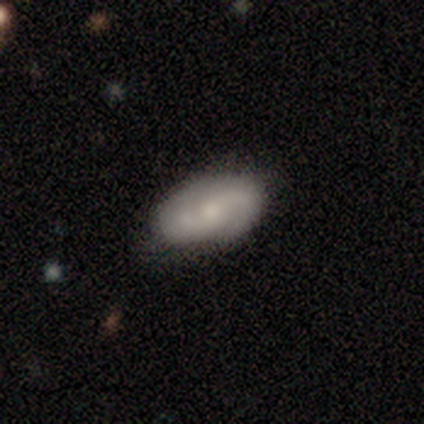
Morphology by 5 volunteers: Volunteers were most divided on "smooth or featured": featured or disk: 60%, smooth: 40%, star or artifact: 0%. More confident: edge-on disk — no (100%); bar — no (100%); spiral arms — yes (100%); spiral winding — medium (67%); spiral arm count — can't tell (67%); bulge size — moderate (67%); merging — none (60%).